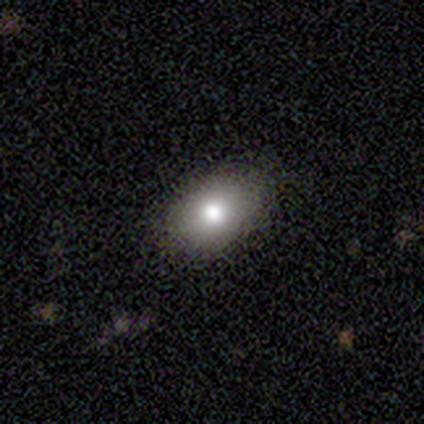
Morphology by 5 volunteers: type=smooth (80%); roundness=in between (100%); merging=none (100%).